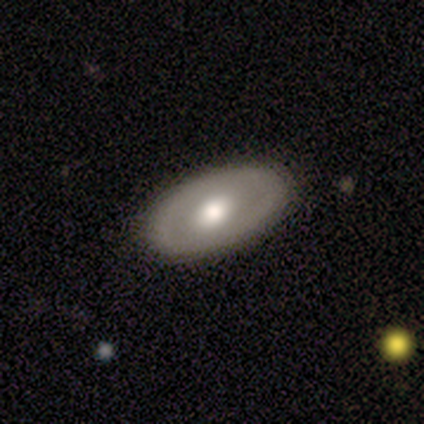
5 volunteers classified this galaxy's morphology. smooth 40% (tied), featured or disk 40% (tied), star or artifact 20%. Down the decision tree: how rounded — in between (100%); merging — none (100%).